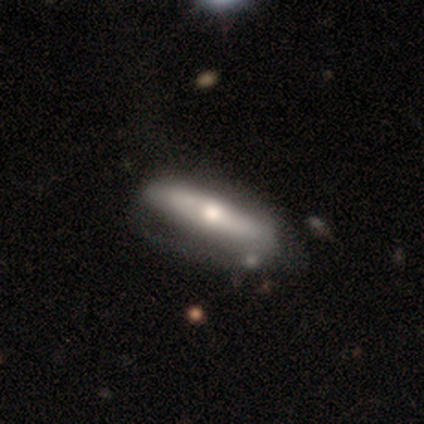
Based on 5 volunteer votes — Smooth or featured: featured or disk — 60% (smooth — 40%)
Edge-on disk: no — 67% (yes — 33%)
Bar: strong — 50% (tied with no — 50%)
Spiral arms: yes — 50% (tied with no — 50%)
Spiral winding: tight — 100%
Spiral arm count: 2 — 100%
Bulge size: moderate — 100%
Merging: none — 60% (minor disturbance — 20%)